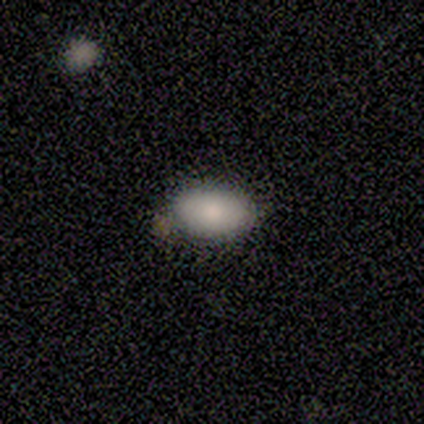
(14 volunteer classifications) Smooth or featured: smooth — 93% (star or artifact — 7%)
How rounded: in between — 85% (round — 15%)
Merging: none — 69% (minor disturbance — 23%)